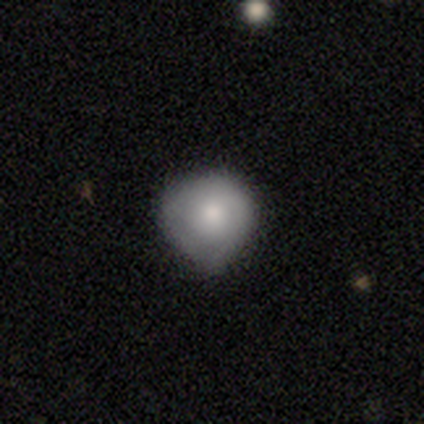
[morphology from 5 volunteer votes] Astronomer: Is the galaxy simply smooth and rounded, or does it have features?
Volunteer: smooth — 80%.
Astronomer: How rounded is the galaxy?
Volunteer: round — 100%.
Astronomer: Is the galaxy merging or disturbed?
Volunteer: none — 60% (runner-up: minor disturbance, 40%).